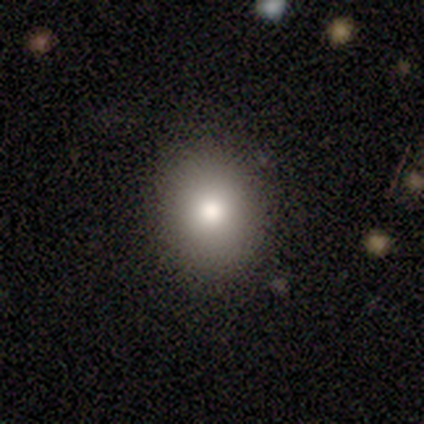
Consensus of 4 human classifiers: smooth_or_featured: smooth (p=1.00)
how_rounded: round (p=0.75) [alt: in between p=0.25]
merging: none (p=1.00)